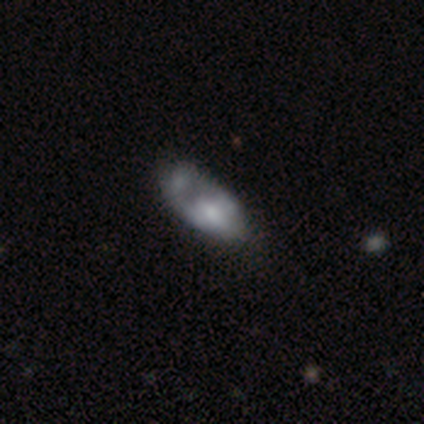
Overall: smooth (60%; featured or disk 40%). How rounded: in between (100%). Merging: none (60%; major disturbance 20%).